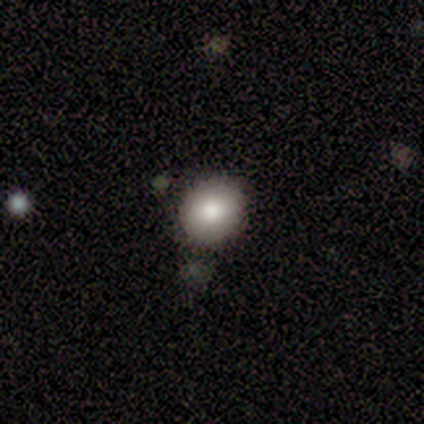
Smooth or featured? 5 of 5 (100%) said smooth. How rounded? 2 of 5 (40%, tied with in between) said round. Merging? 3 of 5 (60%) said none.